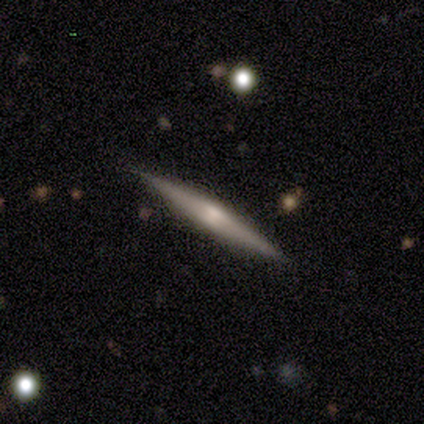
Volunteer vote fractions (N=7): featured or disk 57%, smooth 43%, star or artifact 0%. Down the decision tree: edge-on disk — yes (100%); edge-on bulge — none (50%, tied with rounded); merging — none (71%).